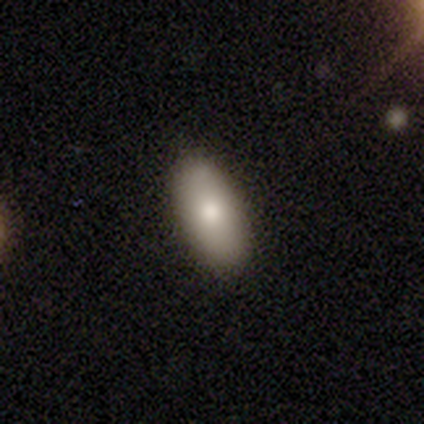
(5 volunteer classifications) Smooth or featured? smooth (80%)
How rounded? in between (100%)
Merging? none (100%)